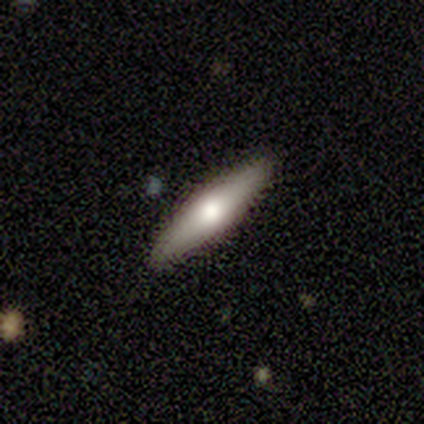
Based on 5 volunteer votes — This appears to be a smooth galaxy with no disk features (60%) that is cigar-shaped (100%). Merging: none (80%).